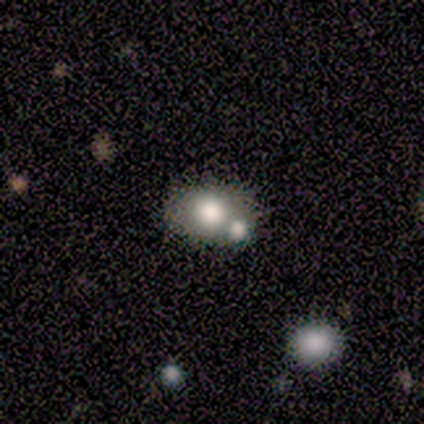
A smooth galaxy with no disk features (71%) that is in between round and cigar-shaped (80%). Merging: minor disturbance (40%, tied with merger).